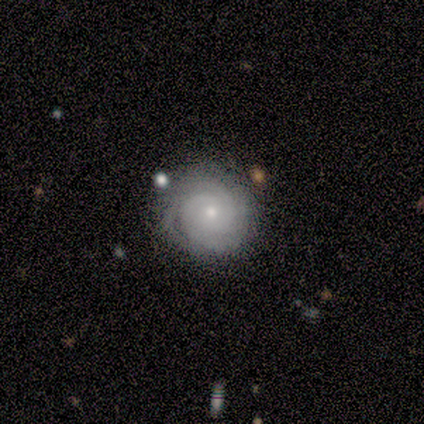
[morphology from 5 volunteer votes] Smooth or featured? 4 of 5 (80%) said featured or disk. Edge-on disk? 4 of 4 (100%) said no. Bar? 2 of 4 (50%, tied with no) said weak. Spiral arms? 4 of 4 (100%) said yes. Spiral winding? 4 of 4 (100%) said tight. Spiral arm count? 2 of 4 (50%, tied with 3) said 2. Bulge size? 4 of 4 (100%) said small. Merging? 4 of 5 (80%) said none.